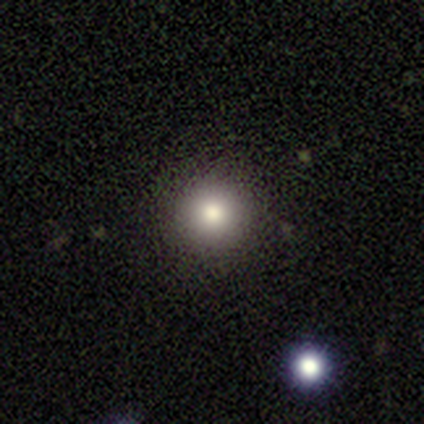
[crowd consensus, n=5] Smooth or featured: smooth — 80% (featured or disk — 20%)
How rounded: round — 100%
Merging: none — 80% (minor disturbance — 20%)